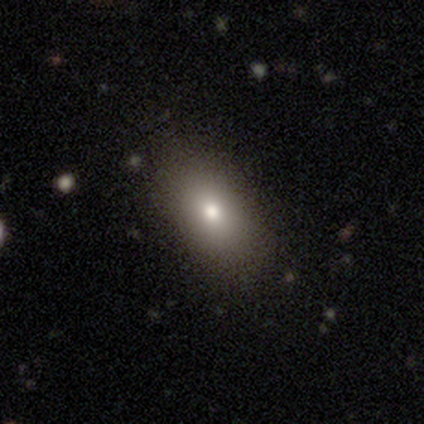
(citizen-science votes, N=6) Smooth or featured? 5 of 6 (83%) said smooth. How rounded? 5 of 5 (100%) said in between. Merging? 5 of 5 (100%) said none.